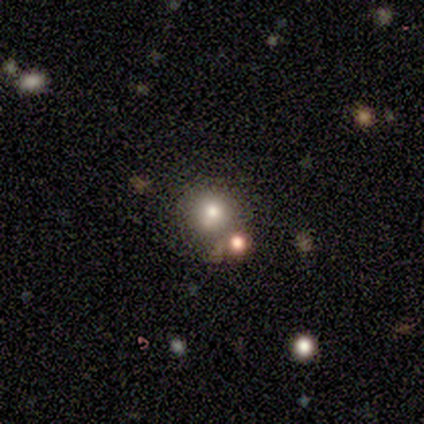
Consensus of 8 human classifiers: Smooth or featured? 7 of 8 (88%) said smooth. How rounded? 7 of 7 (100%) said round. Merging? 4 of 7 (57%) said none.